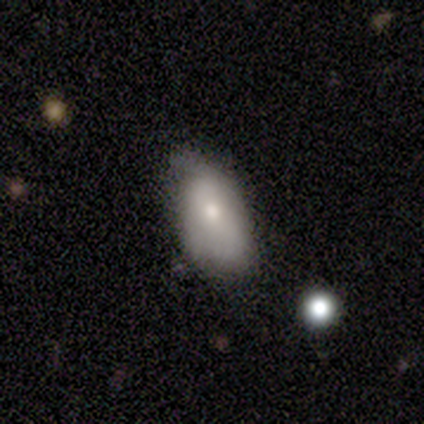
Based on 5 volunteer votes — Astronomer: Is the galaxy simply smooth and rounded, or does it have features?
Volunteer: featured or disk — 60% (runner-up: smooth, 40%).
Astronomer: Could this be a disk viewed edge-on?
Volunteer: no — 67%.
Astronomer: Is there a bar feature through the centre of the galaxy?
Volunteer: no — 100%.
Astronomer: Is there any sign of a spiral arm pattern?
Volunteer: no — 100%.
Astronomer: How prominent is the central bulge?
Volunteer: moderate — 50%, tied with small at 50%.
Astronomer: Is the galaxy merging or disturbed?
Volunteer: minor disturbance — 80%.